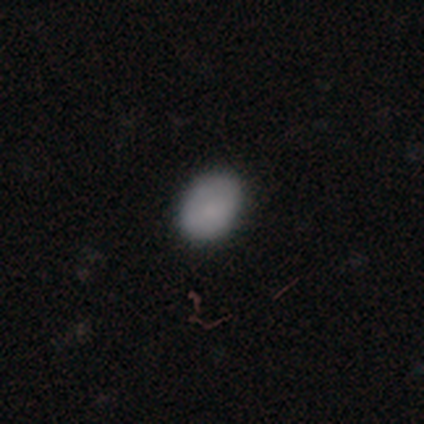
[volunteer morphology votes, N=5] smooth 100%, featured or disk 0%, star or artifact 0%. Down the decision tree: how rounded — round (60%); merging — none (80%).